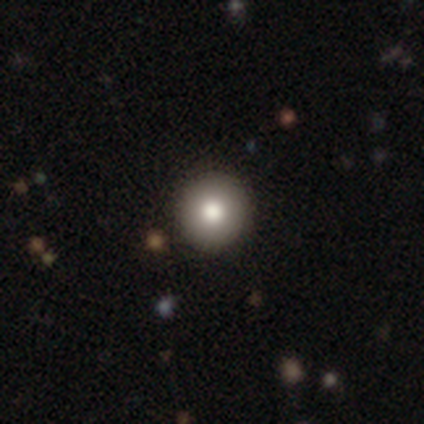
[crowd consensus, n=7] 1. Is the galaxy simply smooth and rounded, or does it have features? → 71% smooth, 29% featured or disk, 0% star or artifact.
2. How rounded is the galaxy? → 100% round, 0% in between, 0% cigar-shaped.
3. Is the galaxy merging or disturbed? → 100% none, 0% minor disturbance, 0% major disturbance, 0% merger.